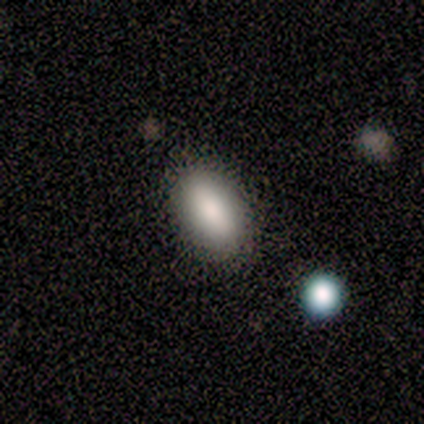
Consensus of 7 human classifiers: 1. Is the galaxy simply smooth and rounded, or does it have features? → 86% smooth, 14% featured or disk, 0% star or artifact.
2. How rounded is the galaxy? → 100% in between, 0% round, 0% cigar-shaped.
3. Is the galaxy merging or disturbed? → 86% none, 14% minor disturbance, 0% major disturbance, 0% merger.